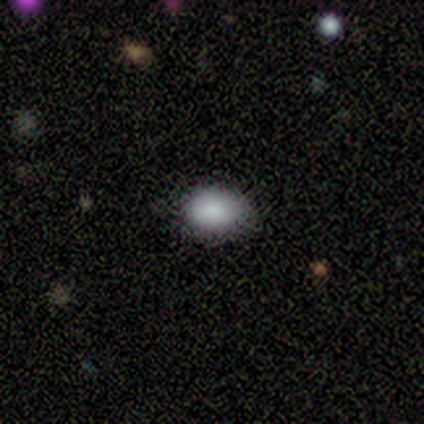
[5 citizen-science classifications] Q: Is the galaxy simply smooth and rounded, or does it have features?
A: smooth — 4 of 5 (80%).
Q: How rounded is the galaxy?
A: in between — 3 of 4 (75%).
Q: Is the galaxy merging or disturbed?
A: none — 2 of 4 (50%).